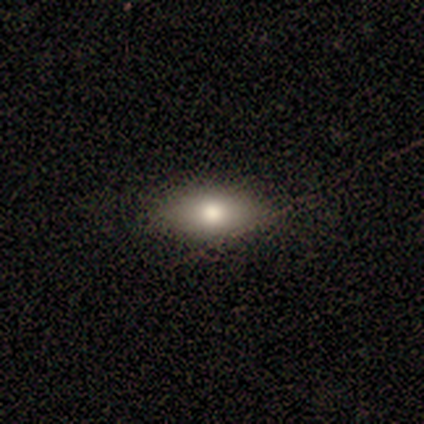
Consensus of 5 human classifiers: This appears to be a featured or disk galaxy (80%) viewed edge-on (75%) with a rounded central bulge (100%). Merging: none (100%).